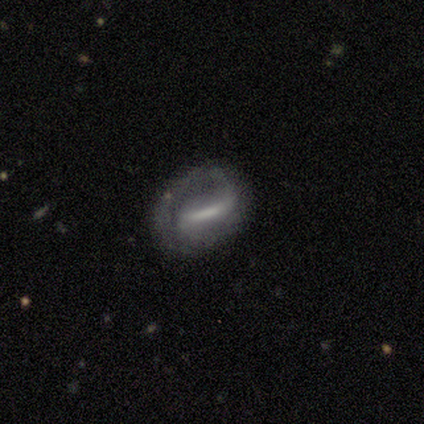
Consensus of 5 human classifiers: This appears to be a featured or disk galaxy (60%) with a weak bar (67%), 1 (100%) loose (67%) spiral arms (100%) and a large central bulge (33%, tied with moderate and small). Merging: none (40%, tied with major disturbance).